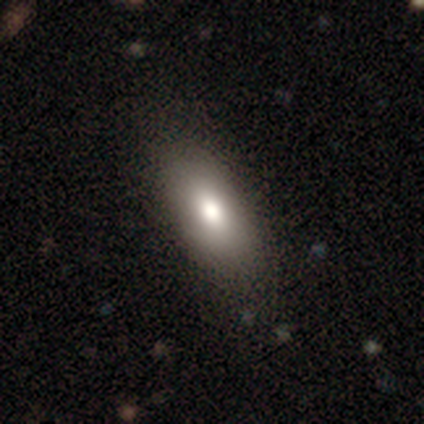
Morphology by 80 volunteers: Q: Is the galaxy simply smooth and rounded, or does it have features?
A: smooth — 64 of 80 (80%).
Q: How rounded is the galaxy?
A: in between — 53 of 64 (83%).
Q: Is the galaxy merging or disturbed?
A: none — 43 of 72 (60%).